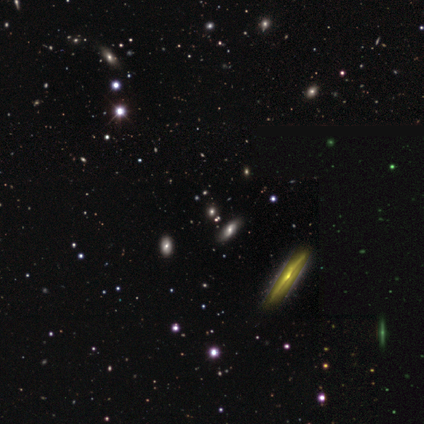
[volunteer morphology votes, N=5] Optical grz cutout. It shows a star or artifact, not a galaxy (80%).